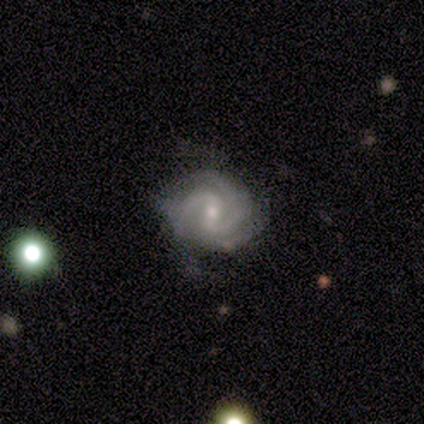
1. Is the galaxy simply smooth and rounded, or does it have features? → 100% featured or disk, 0% smooth, 0% star or artifact.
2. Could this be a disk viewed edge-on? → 100% no, 0% yes.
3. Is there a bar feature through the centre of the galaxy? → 75% weak, 25% strong, 0% no.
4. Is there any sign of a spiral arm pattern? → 100% yes, 0% no.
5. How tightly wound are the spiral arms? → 50% tight (tied), 50% medium (tied), 0% loose.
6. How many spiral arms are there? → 50% 2, 25% 3, 25% can't tell, 0% 1, 0% 4, 0% more than 4.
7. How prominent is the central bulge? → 75% moderate, 25% small, 0% dominant, 0% large, 0% none.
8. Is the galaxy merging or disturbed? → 50% none, 25% minor disturbance, 25% major disturbance, 0% merger.